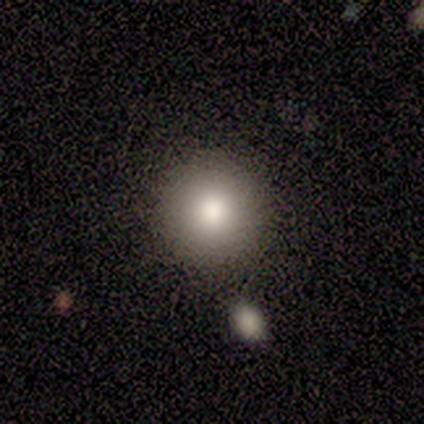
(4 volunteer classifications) This is clearly a smooth galaxy (100%). How rounded: clearly round (100%). Merging: likely none (75%).